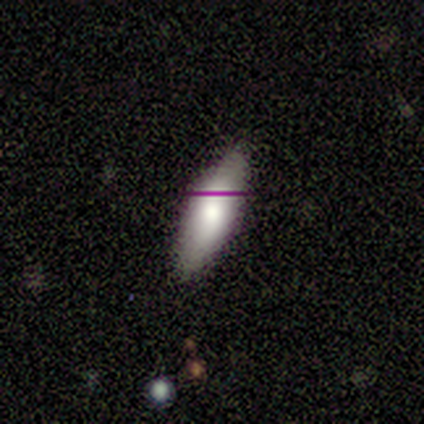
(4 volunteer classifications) This is clearly a smooth galaxy (100%). How rounded: likely in between (75%). Merging: possibly none (50%, tied with minor disturbance).